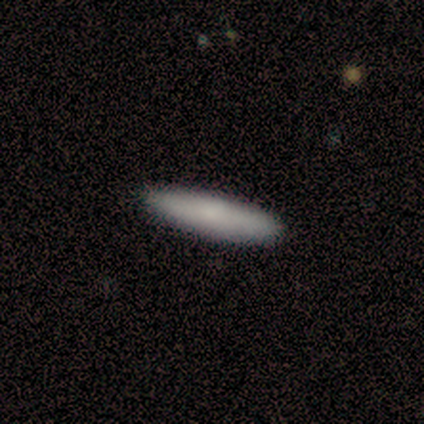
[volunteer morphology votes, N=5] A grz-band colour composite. It shows a smooth galaxy with no disk features (100%) that is cigar-shaped (60%). Merging: none (100%).